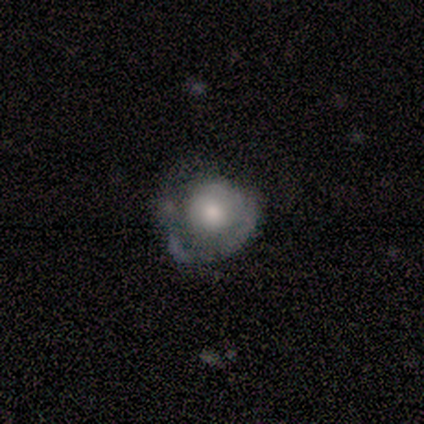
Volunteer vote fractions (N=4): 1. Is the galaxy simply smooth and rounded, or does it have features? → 100% featured or disk, 0% smooth, 0% star or artifact.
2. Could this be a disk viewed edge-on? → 100% no, 0% yes.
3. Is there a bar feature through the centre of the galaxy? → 100% no, 0% strong, 0% weak.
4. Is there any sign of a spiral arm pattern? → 75% no, 25% yes.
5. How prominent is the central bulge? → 50% moderate, 25% large, 25% small, 0% dominant, 0% none.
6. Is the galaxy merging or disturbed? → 75% none, 25% major disturbance, 0% minor disturbance, 0% merger.